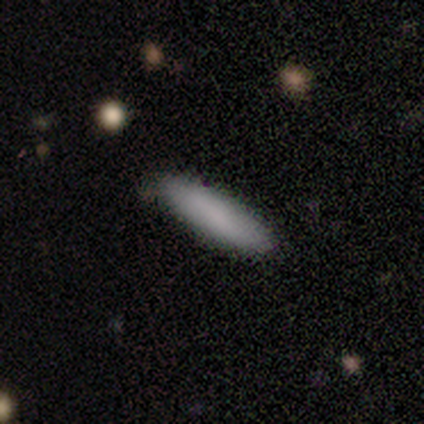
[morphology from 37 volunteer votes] A smooth galaxy with no disk features (92%) that is cigar-shaped (74%). Merging: none (89%).